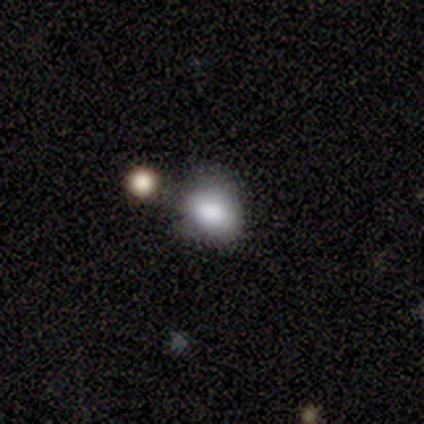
Q: Smooth or featured?
A: smooth (70%); runner-up: featured or disk (16%)
Q: How rounded?
A: round (50%); tied with: in between (50%)
Q: Merging?
A: none (53%); runner-up: minor disturbance (25%)